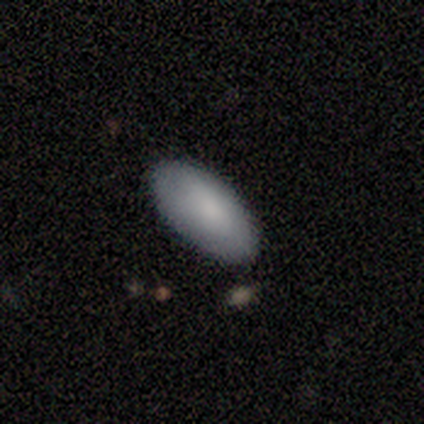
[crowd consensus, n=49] This is likely a smooth galaxy (80%). How rounded: clearly in between (92%). Merging: clearly none (87%).